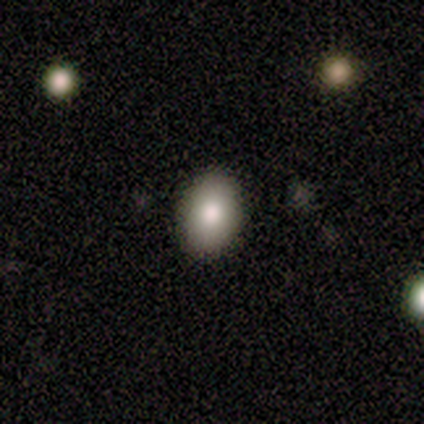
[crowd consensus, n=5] A smooth galaxy with no disk features (100%) that is in between round and cigar-shaped (80%). Merging: none (100%).